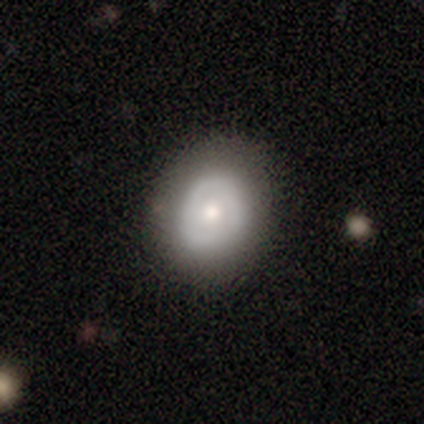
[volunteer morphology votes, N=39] Volunteers were most divided on "smooth or featured": smooth: 56%, featured or disk: 44%, star or artifact: 0%. More confident: merging — none (74%); how rounded — round (55%).